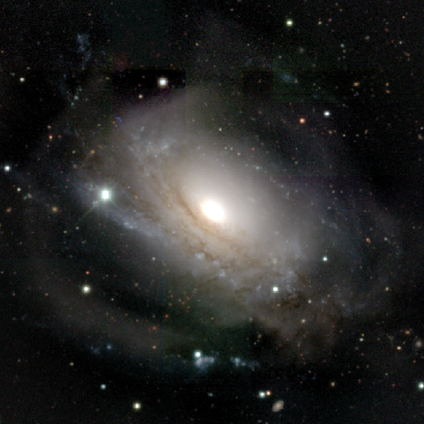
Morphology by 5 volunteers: Smooth or featured?
  - featured or disk: 60% *
  - smooth: 20%
  - star or artifact: 20%
Edge-on disk?
  - no: 100% *
  - yes: 0%
Bar?
  - no: 100% *
  - strong: 0%
  - weak: 0%
Spiral arms?
  - no: 100% *
  - yes: 0%
Bulge size?
  - moderate: 67% *
  - dominant: 33%
  - large: 0%
  - small: 0%
  - none: 0%
Merging?
  - major disturbance: 75% *
  - merger: 25%
  - none: 0%
  - minor disturbance: 0%